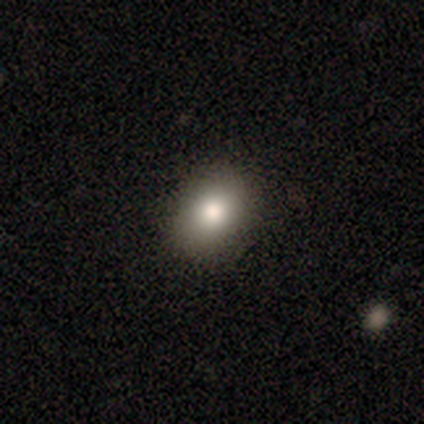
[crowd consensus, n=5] Q: Smooth or featured?
A: smooth (80%); runner-up: star or artifact (20%)
Q: How rounded?
A: in between (75%); runner-up: round (25%)
Q: Merging?
A: none (100%)